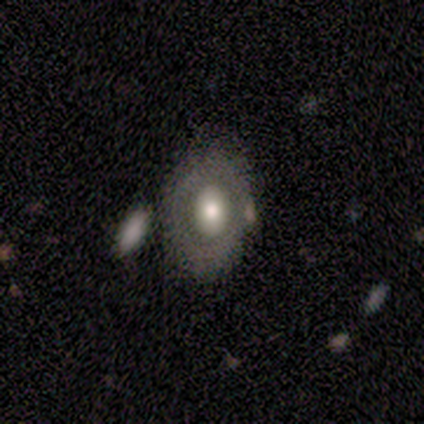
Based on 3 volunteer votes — Volunteers were most divided on "edge-on disk" (2-way tie): yes: 50%, no: 50%. More confident: edge-on bulge — rounded (100%); smooth or featured — featured or disk (67%); merging — none (67%).